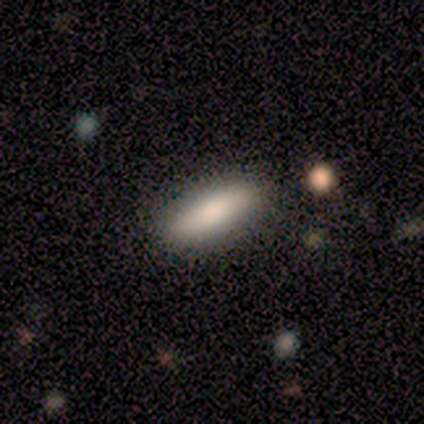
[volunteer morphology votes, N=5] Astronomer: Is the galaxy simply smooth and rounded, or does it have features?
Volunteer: smooth — 100%.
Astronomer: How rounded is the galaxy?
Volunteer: cigar-shaped — 60% (runner-up: in between, 40%).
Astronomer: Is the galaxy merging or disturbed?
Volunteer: none — 100%.